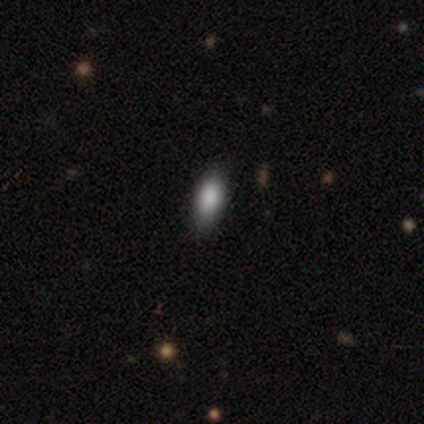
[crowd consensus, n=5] Overall: smooth (100%). How rounded: in between (80%). Merging: none (100%).